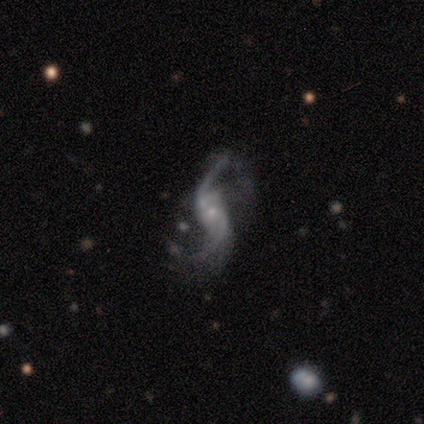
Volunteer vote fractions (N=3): Q: Smooth or featured?
A: featured or disk (100%)
Q: Edge-on disk?
A: no (100%)
Q: Bar?
A: no (100%)
Q: Spiral arms?
A: yes (100%)
Q: Spiral winding?
A: loose (67%); runner-up: medium (33%)
Q: Spiral arm count?
A: 2 (100%)
Q: Bulge size?
A: small (67%); runner-up: none (33%)
Q: Merging?
A: none (33%); tied with: minor disturbance (33%); major disturbance (33%)